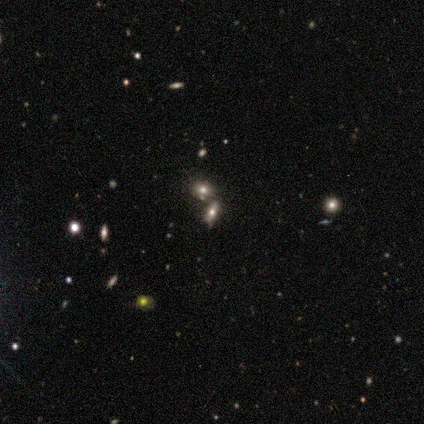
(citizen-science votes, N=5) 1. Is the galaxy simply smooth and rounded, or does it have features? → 40% smooth (tied), 40% star or artifact (tied), 20% featured or disk.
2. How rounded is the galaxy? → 50% in between (tied), 50% cigar-shaped (tied), 0% round.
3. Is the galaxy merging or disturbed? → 33% none (tied), 33% minor disturbance (tied), 33% merger (tied), 0% major disturbance.